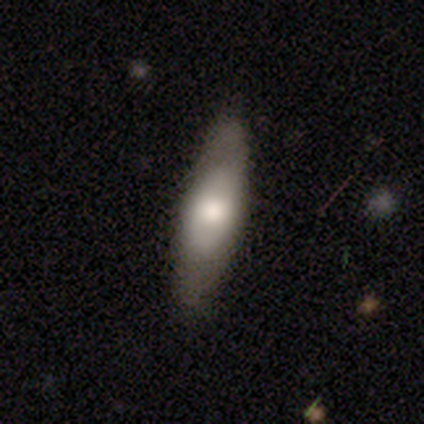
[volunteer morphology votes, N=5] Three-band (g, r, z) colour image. It shows a smooth galaxy with no disk features (60%) that is cigar-shaped (67%). Merging: none (100%).